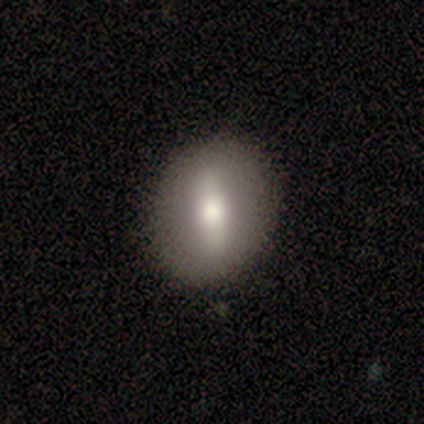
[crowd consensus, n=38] Smooth or featured: featured or disk — 53% (smooth — 37%)
Edge-on disk: no — 80% (yes — 20%)
Bar: strong — 75% (weak — 12%)
Spiral arms: no — 94% (yes — 6%)
Bulge size: moderate — 44% (large — 38%)
Merging: none — 85% (minor disturbance — 9%)